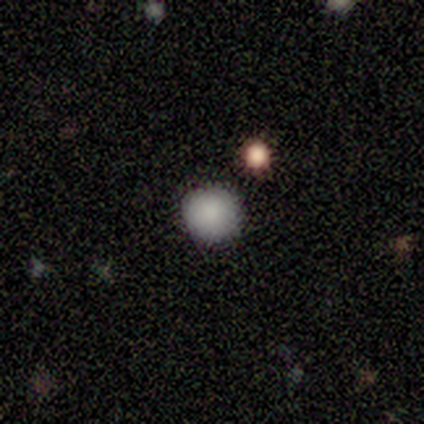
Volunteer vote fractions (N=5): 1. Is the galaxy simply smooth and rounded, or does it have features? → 100% smooth, 0% featured or disk, 0% star or artifact.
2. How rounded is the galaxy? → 100% round, 0% in between, 0% cigar-shaped.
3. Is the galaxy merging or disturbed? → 100% none, 0% minor disturbance, 0% major disturbance, 0% merger.